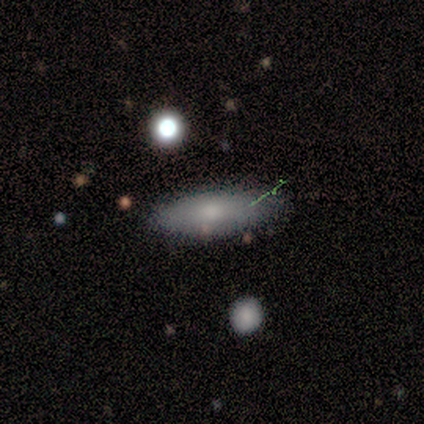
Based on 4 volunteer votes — A smooth galaxy with no disk features (100%) that is in between round and cigar-shaped (75%).

Vote fractions:
- Smooth or featured? smooth: 100% / featured or disk: 0% / star or artifact: 0%
- How rounded? in between: 75% / cigar-shaped: 25% / round: 0%
- Merging? none: 100% / minor disturbance: 0% / major disturbance: 0% / merger: 0%